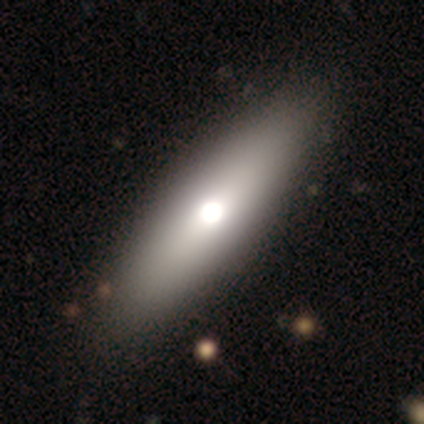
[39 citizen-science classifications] Smooth or featured? smooth (64%)
How rounded? in between (72%)
Merging? none (62%)